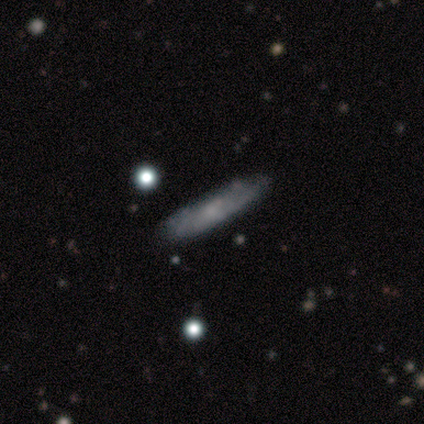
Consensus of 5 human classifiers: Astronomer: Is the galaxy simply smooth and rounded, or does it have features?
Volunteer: smooth — 80%.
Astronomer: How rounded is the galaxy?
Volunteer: cigar-shaped — 75%.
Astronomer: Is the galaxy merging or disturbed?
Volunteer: none — 100%.